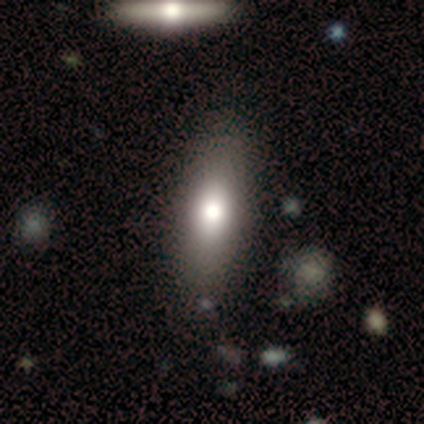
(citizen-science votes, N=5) Smooth or featured? smooth (80%)
How rounded? in between (50%, tied with cigar-shaped)
Merging? none (75%)